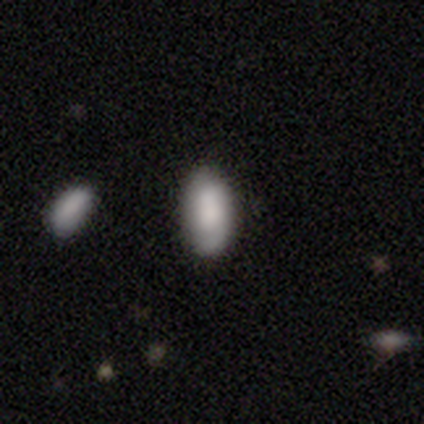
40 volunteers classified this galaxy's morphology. Overall: smooth (78%). How rounded: in between (94%). Merging: none (74%).